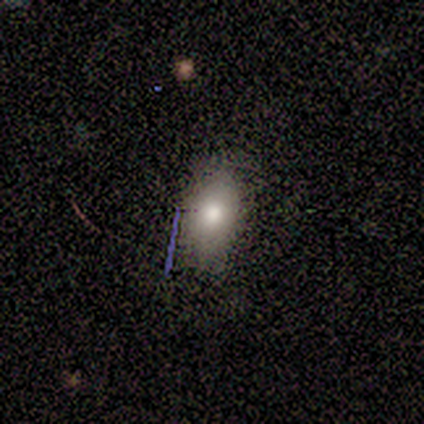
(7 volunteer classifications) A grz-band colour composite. It shows a smooth galaxy with no disk features (86%) that is in between round and cigar-shaped (67%). Merging: none (67%).